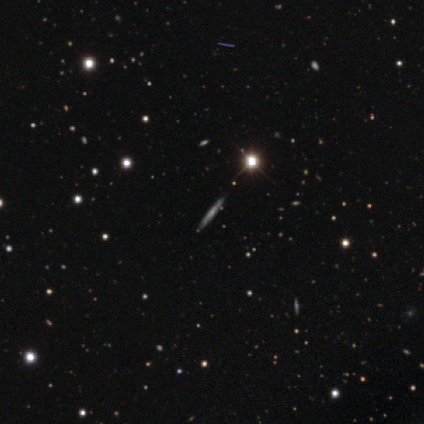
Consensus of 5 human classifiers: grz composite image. It shows a featured or disk galaxy (60%) viewed edge-on (100%) with no central bulge (100%). Merging: none (100%).